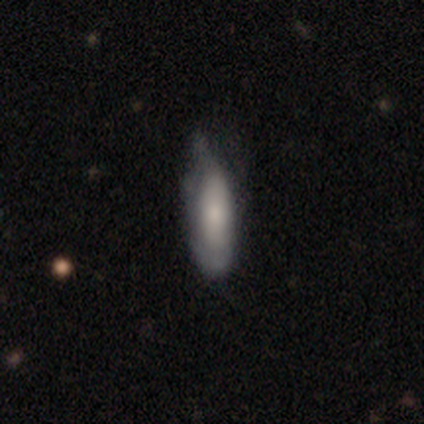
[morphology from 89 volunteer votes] A smooth galaxy with no disk features (72%) that is in between round and cigar-shaped (59%). Merging: minor disturbance (54%).